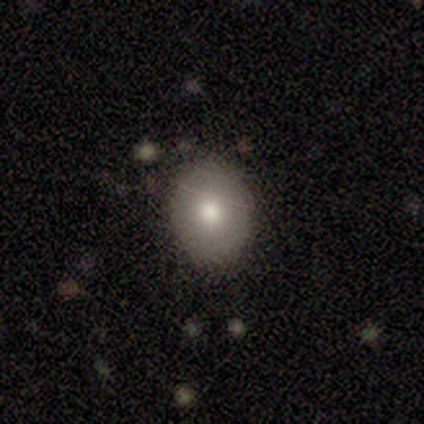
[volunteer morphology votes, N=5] Q: Smooth or featured?
A: smooth (80%); runner-up: star or artifact (20%)
Q: How rounded?
A: in between (75%); runner-up: round (25%)
Q: Merging?
A: none (100%)